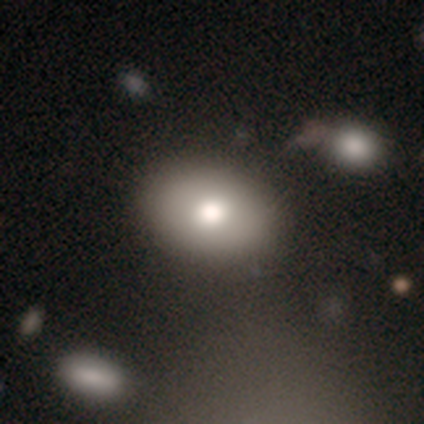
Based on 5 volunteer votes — Morphology: type=smooth (80%); roundness=in between (100%); merging=none (80%).